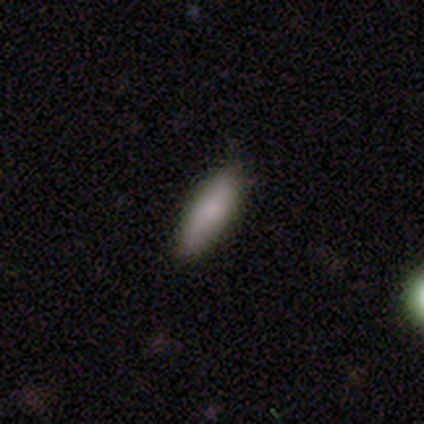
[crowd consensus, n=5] Smooth or featured?
  - smooth: 100% *
  - featured or disk: 0%
  - star or artifact: 0%
How rounded?
  - cigar-shaped: 80% *
  - in between: 20%
  - round: 0%
Merging?
  - none: 80% *
  - minor disturbance: 20%
  - major disturbance: 0%
  - merger: 0%